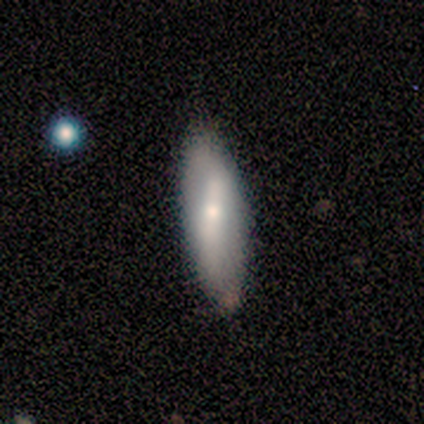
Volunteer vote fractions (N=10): A smooth galaxy with no disk features (80%) that is in between round and cigar-shaped (62%).

Vote fractions:
- Smooth or featured? smooth: 80% / featured or disk: 20% / star or artifact: 0%
- How rounded? in between: 62% / cigar-shaped: 25% / round: 12%
- Merging? none: 50% / minor disturbance: 40% / merger: 10% / major disturbance: 0%